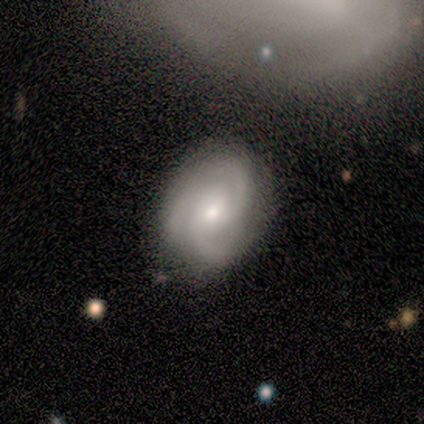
This appears to be a featured or disk galaxy (80%) with a weak bar (67%), 3 (100%) medium (100%) spiral arms (100%) and a moderate central bulge (33%, tied with small and none). Merging: none (75%).